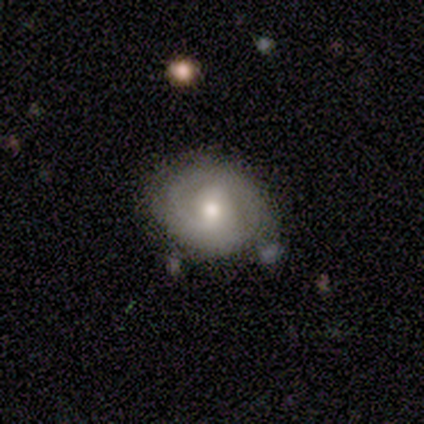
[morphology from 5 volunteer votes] This is likely a featured or disk galaxy (60%). It is clearly not viewed edge-on (100%). Bar: likely no (67%). Spiral arm pattern: clearly yes (100%). Spiral arm count: marginally 1 (33%, tied with 2 and can't tell). Spiral winding: clearly tight (100%). Central bulge: clearly moderate (100%). Merging: clearly none (80%).